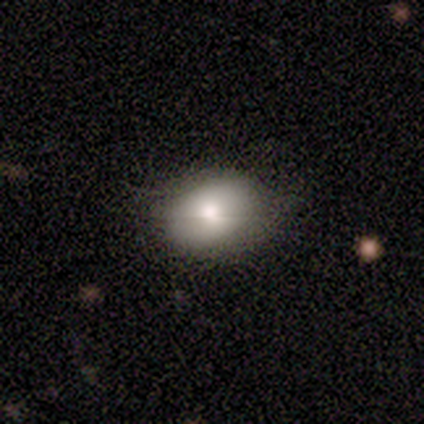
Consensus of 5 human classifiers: Smooth or featured: smooth — 100%
How rounded: in between — 100%
Merging: none — 80% (minor disturbance — 20%)